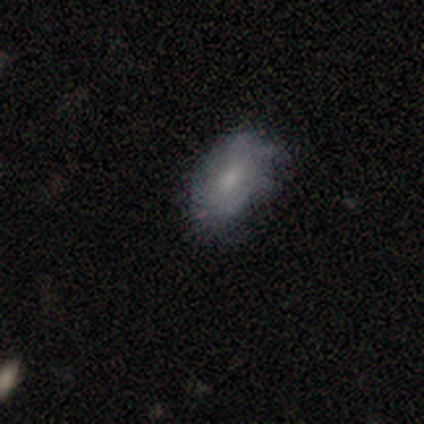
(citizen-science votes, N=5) Q: Smooth or featured?
A: smooth (40%); tied with: featured or disk (40%)
Q: How rounded?
A: in between (100%)
Q: Merging?
A: none (75%); runner-up: minor disturbance (25%)